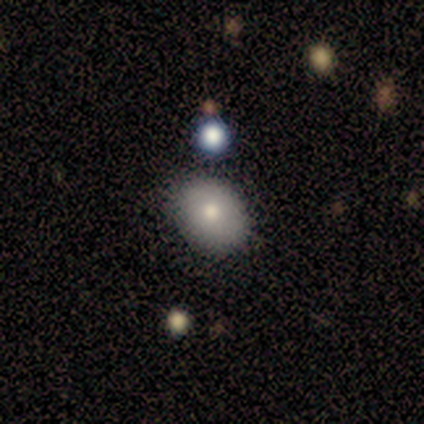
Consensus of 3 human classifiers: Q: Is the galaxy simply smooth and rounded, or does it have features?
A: smooth — 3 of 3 (100%).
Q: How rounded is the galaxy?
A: round — 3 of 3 (100%).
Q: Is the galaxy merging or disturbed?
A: none — 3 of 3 (100%).